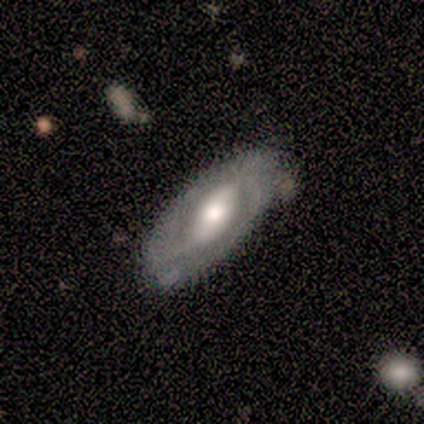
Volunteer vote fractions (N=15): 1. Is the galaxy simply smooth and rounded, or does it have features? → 87% featured or disk, 13% smooth, 0% star or artifact.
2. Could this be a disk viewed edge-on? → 69% no, 31% yes.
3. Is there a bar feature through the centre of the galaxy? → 44% weak, 33% no, 22% strong.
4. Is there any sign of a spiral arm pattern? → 89% yes, 11% no.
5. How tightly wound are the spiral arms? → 50% tight, 25% medium, 25% loose.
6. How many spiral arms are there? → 88% 2, 12% can't tell, 0% 1, 0% 3, 0% 4, 0% more than 4.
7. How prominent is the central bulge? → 78% moderate, 22% large, 0% dominant, 0% small, 0% none.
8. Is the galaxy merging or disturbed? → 87% none, 13% minor disturbance, 0% major disturbance, 0% merger.